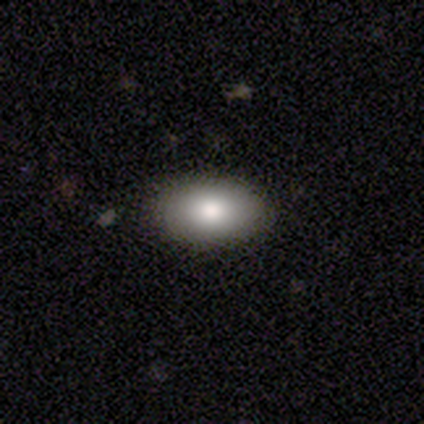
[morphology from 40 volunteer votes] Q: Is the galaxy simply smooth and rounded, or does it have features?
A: smooth — 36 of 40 (90%).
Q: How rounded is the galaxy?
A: in between — 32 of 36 (89%).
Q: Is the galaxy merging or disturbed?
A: none — 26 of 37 (70%).